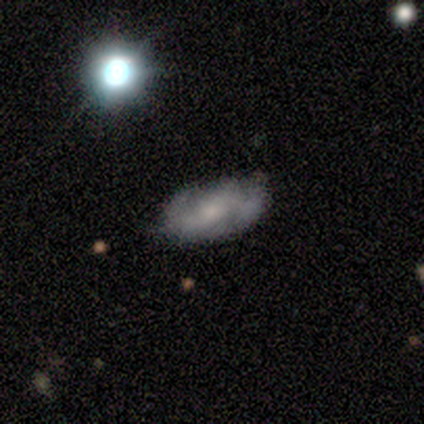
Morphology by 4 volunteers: Volunteers were most divided on "bar": weak: 67%, no: 33%, strong: 0%. More confident: edge-on disk — no (100%); spiral arms — yes (100%); spiral arm count — 2 (100%); smooth or featured — featured or disk (75%); spiral winding — medium (67%); bulge size — small (67%); merging — none (67%).